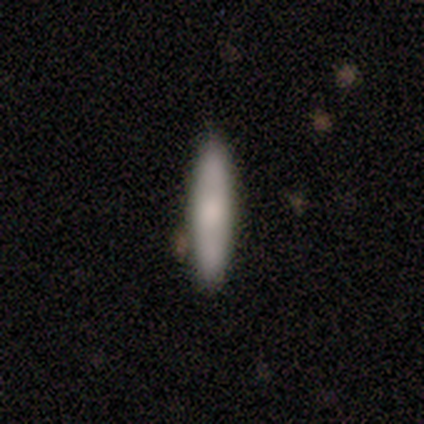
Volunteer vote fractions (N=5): Smooth or featured?
  - smooth: 80% *
  - featured or disk: 20%
  - star or artifact: 0%
How rounded?
  - cigar-shaped: 100% *
  - round: 0%
  - in between: 0%
Merging?
  - none: 80% *
  - minor disturbance: 20%
  - major disturbance: 0%
  - merger: 0%